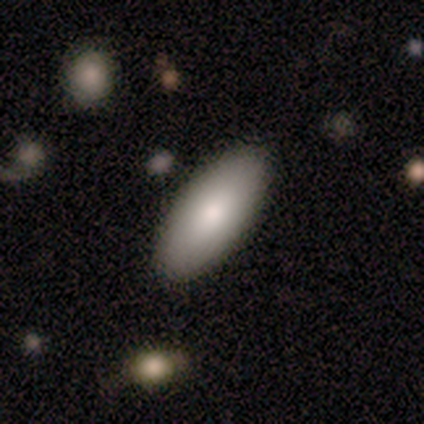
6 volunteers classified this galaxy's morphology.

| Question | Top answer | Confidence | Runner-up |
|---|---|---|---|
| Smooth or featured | smooth | 67% | star or artifact (33%) |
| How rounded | in between | 75% | cigar-shaped (25%) |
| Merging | none | 100% | — |